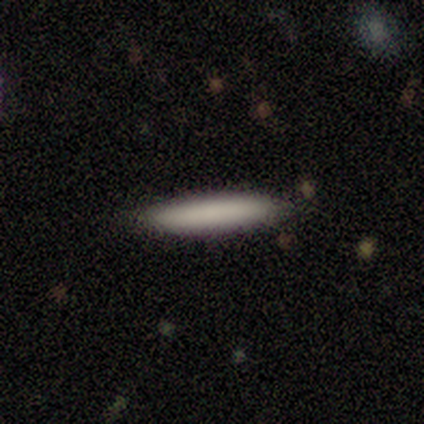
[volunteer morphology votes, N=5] type=smooth (60%); roundness=cigar-shaped (67%); merging=none (100%).